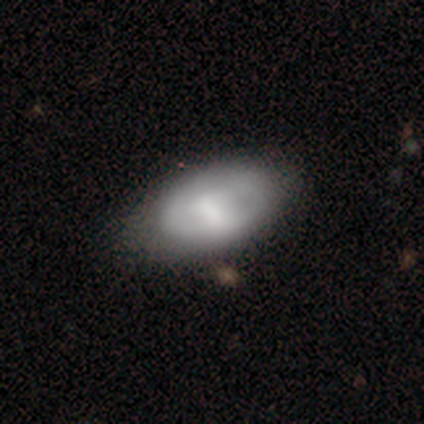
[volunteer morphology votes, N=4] This appears to be a smooth galaxy with no disk features (50%, tied with featured or disk) that is in between round and cigar-shaped (100%). Merging: none (75%).